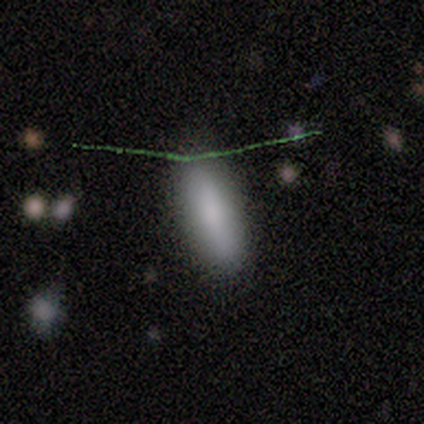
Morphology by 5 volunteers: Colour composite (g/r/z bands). It shows a smooth galaxy with no disk features (80%) that is in between round and cigar-shaped (75%). Merging: minor disturbance (75%).